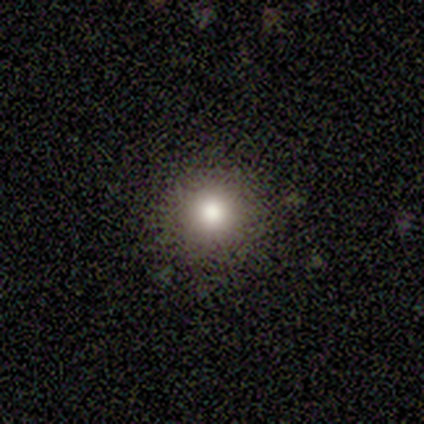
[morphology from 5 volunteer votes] Smooth or featured? 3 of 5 (60%) said featured or disk. Edge-on disk? 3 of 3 (100%) said no. Bar? 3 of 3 (100%) said no. Spiral arms? 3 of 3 (100%) said no. Bulge size? 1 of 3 (33%, tied with large and moderate) said dominant. Merging? 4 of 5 (80%) said none.